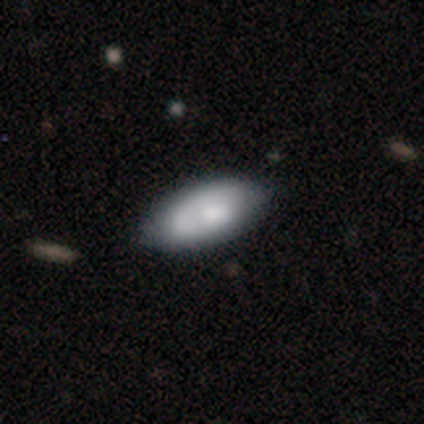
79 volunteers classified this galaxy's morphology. Smooth or featured: smooth — 62% (featured or disk — 34%)
How rounded: in between — 92% (cigar-shaped — 8%)
Merging: none — 36% (minor disturbance — 8%)